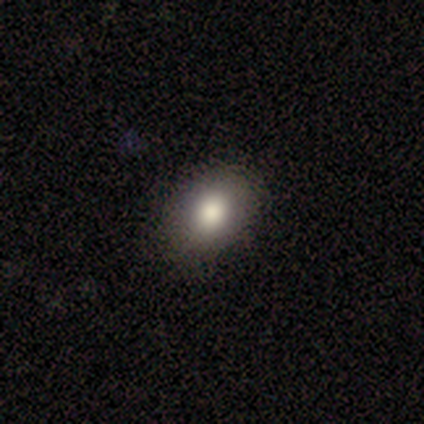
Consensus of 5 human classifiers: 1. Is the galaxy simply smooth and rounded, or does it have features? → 80% smooth, 20% star or artifact, 0% featured or disk.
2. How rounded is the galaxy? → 75% in between, 25% round, 0% cigar-shaped.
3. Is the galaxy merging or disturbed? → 100% none, 0% minor disturbance, 0% major disturbance, 0% merger.